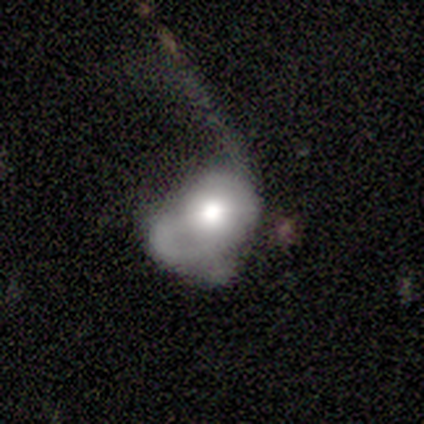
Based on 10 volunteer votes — Smooth or featured? 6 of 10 (60%) said featured or disk. Edge-on disk? 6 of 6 (100%) said no. Bar? 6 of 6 (100%) said no. Spiral arms? 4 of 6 (67%) said no. Bulge size? 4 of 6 (67%) said moderate. Merging? 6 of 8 (75%) said major disturbance.